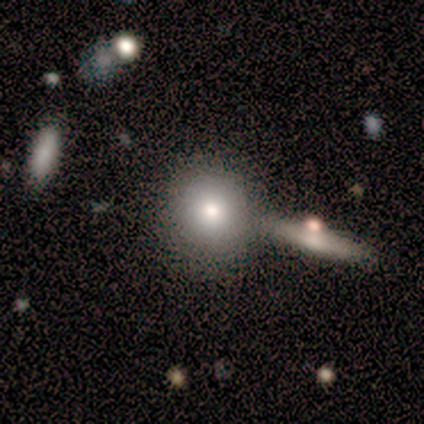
Smooth or featured? 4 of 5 (80%) said smooth. How rounded? 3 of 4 (75%) said round. Merging? 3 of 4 (75%) said none.